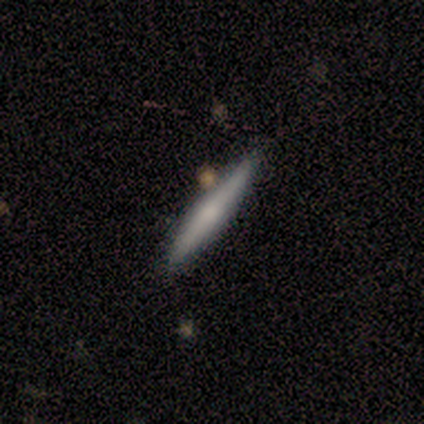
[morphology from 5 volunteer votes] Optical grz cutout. It shows a featured or disk galaxy (80%) viewed edge-on (100%) with a rounded central bulge (50%). Merging: none (80%).